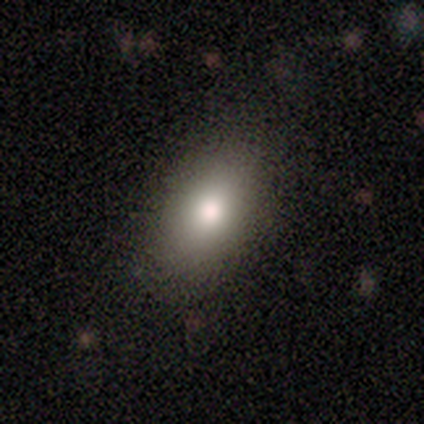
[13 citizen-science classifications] A smooth galaxy with no disk features (92%) that is in between round and cigar-shaped (92%).

Vote fractions:
- Smooth or featured? smooth: 92% / featured or disk: 8% / star or artifact: 0%
- How rounded? in between: 92% / round: 8% / cigar-shaped: 0%
- Merging? none: 92% / minor disturbance: 8% / major disturbance: 0% / merger: 0%